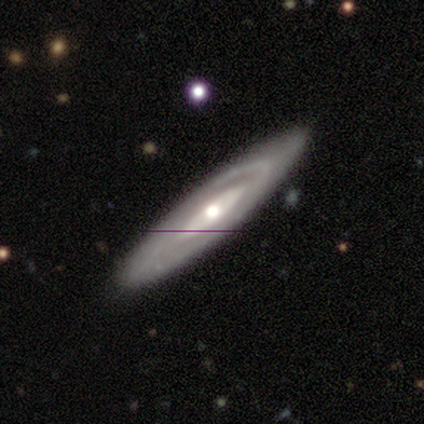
Smooth or featured: featured or disk — 40% (tied with star or artifact — 40%)
Edge-on disk: no — 100%
Bar: no — 100%
Spiral arms: yes — 50% (tied with no — 50%)
Spiral winding: medium — 100%
Spiral arm count: 2 — 100%
Bulge size: large — 50% (tied with moderate — 50%)
Merging: none — 100%